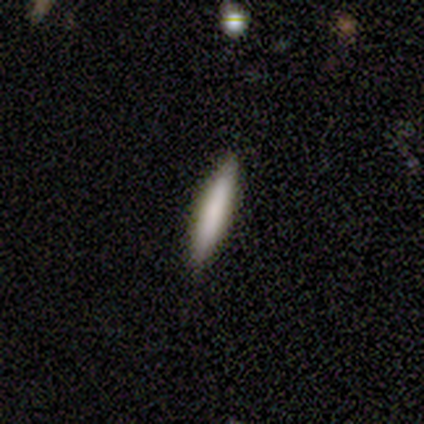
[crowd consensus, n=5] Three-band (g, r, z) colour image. It shows a smooth galaxy with no disk features (60%) that is cigar-shaped (100%). Merging: none (100%).